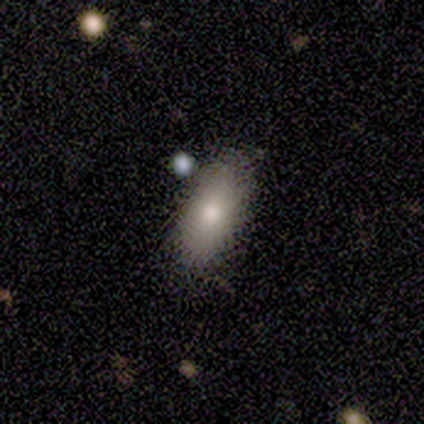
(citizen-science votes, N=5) This appears to be a smooth galaxy with no disk features (80%) that is in between round and cigar-shaped (100%). Merging: none (80%).